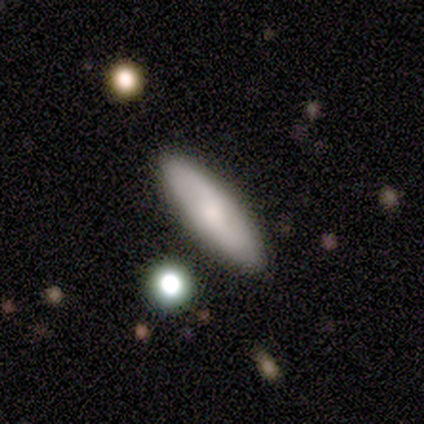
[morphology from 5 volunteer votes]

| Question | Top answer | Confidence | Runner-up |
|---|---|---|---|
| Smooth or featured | smooth | 100% | — |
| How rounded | in between | 80% | cigar-shaped (20%) |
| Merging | none | 80% | minor disturbance (20%) |